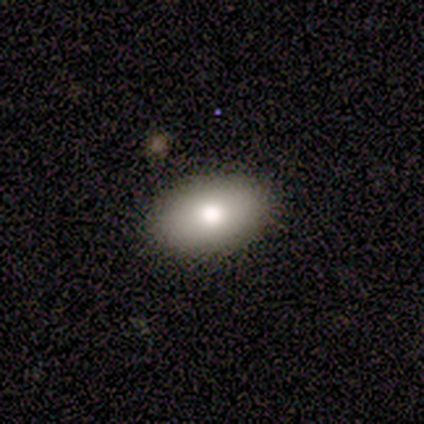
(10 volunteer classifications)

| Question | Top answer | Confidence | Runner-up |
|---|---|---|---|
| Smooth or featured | smooth | 100% | — |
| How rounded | in between | 90% | round (10%) |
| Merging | none | 100% | — |